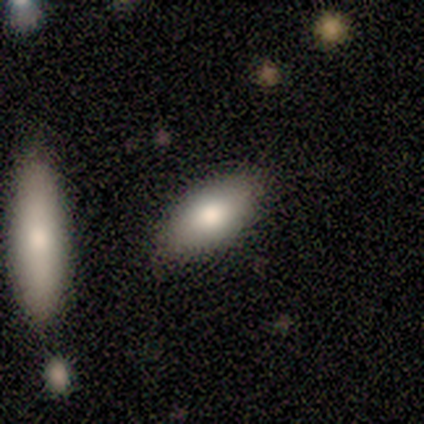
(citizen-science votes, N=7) Overall: smooth (86%). How rounded: in between (100%). Merging: none (100%).